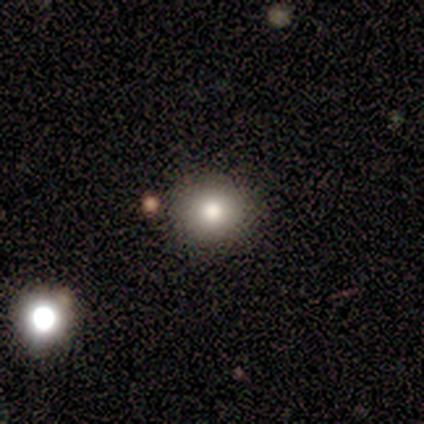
This is clearly a smooth galaxy (80%). How rounded: clearly round (100%). Merging: clearly none (100%).